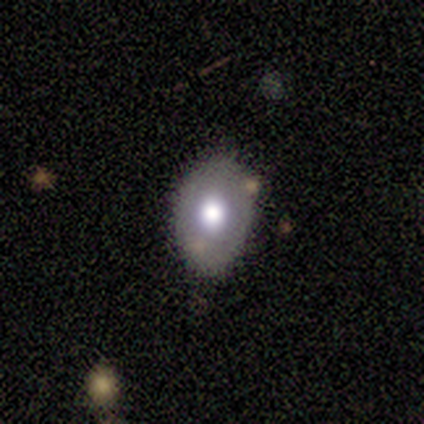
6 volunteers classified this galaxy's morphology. Smooth or featured? smooth (100%)
How rounded? in between (83%)
Merging? none (67%)